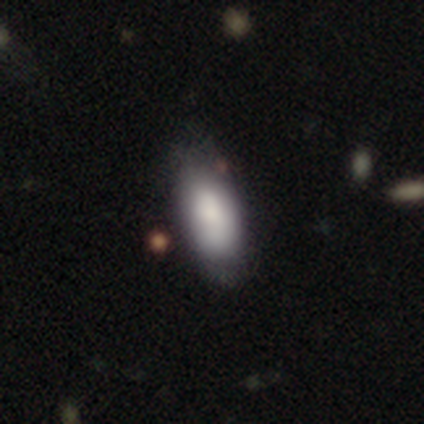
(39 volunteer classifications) This is possibly a smooth galaxy (56%). How rounded: clearly in between (86%). Merging: clearly none (86%).